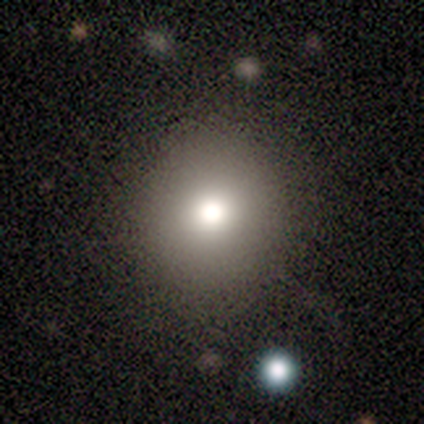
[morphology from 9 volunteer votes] smooth_or_featured: smooth (p=0.67) [alt: featured or disk p=0.22]
how_rounded: round (p=0.67) [alt: in between p=0.33]
merging: none (p=1.00)